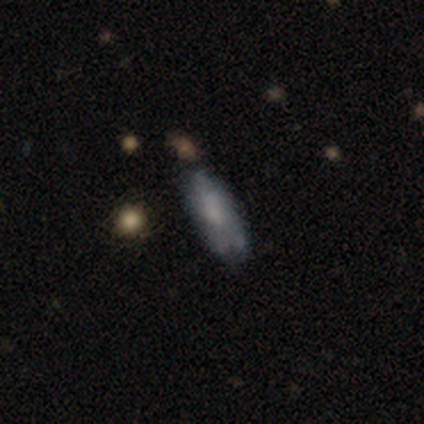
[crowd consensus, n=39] Morphology: type=smooth (54%); roundness=in between (71%); merging=none (59%).